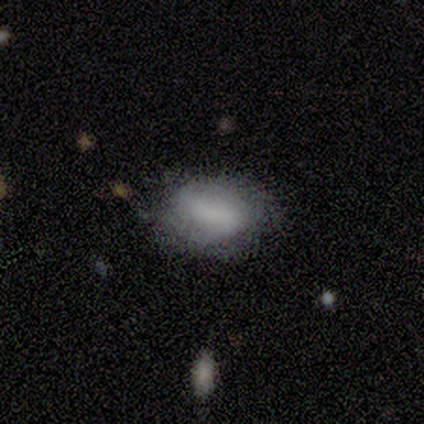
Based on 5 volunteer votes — Morphology: type=smooth (80%); roundness=in between (100%); merging=minor disturbance (60%).